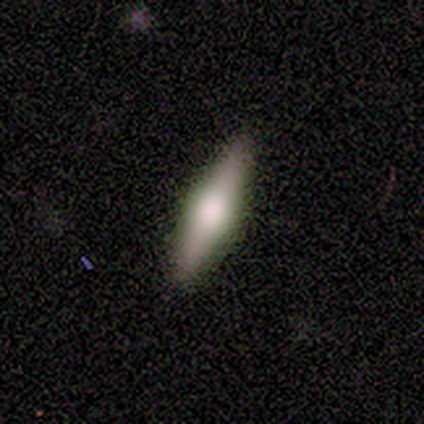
Smooth or featured?
  - smooth: 50% *
  - featured or disk: 42%
  - star or artifact: 8%
How rounded?
  - cigar-shaped: 100% *
  - round: 0%
  - in between: 0%
Merging?
  - none: 91% *
  - minor disturbance: 9%
  - major disturbance: 0%
  - merger: 0%